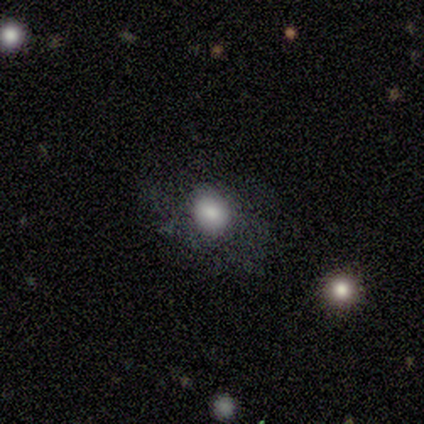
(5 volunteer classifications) smooth_or_featured: smooth (p=0.60) [alt: star or artifact p=0.40]
how_rounded: in between (p=0.67) [alt: round p=0.33]
merging: none (p=1.00)